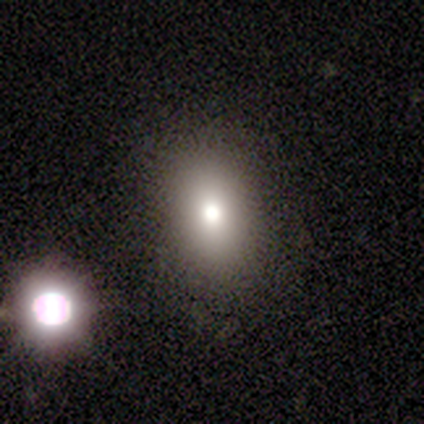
smooth_or_featured: smooth (p=0.71) [alt: star or artifact p=0.21]
how_rounded: in between (p=0.81) [alt: round p=0.19]
merging: none (p=0.80) [alt: minor disturbance p=0.10]